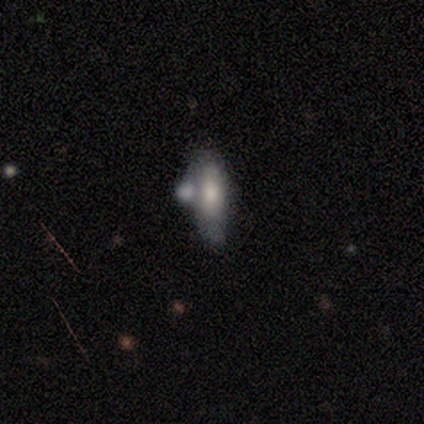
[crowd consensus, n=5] Morphology: type=smooth (60%); roundness=in between (67%); merging=merger (50%).